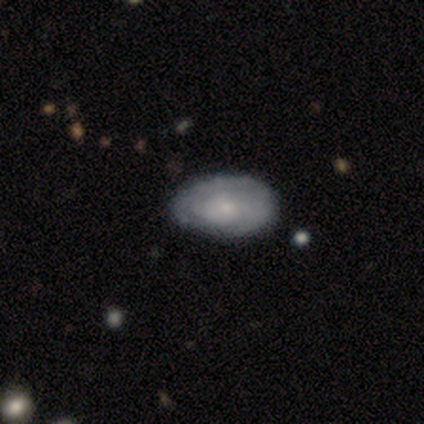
Smooth or featured: smooth — 80% (featured or disk — 20%)
How rounded: in between — 100%
Merging: none — 80% (minor disturbance — 20%)